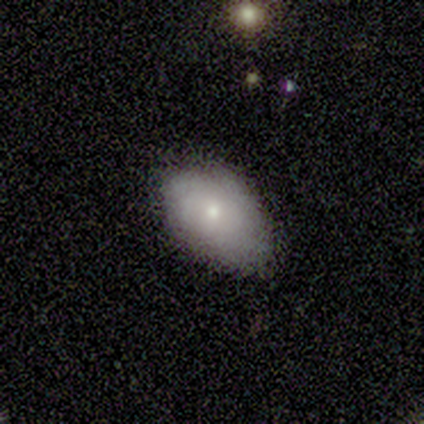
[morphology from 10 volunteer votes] A smooth galaxy with no disk features (70%) that is in between round and cigar-shaped (71%). Merging: minor disturbance (67%).